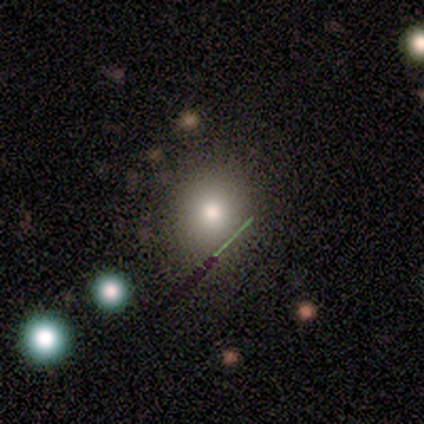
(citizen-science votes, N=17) A smooth galaxy with no disk features (76%) that is round (62%).

Vote fractions:
- Smooth or featured? smooth: 76% / star or artifact: 18% / featured or disk: 6%
- How rounded? round: 62% / in between: 38% / cigar-shaped: 0%
- Merging? none: 86% / minor disturbance: 14% / major disturbance: 0% / merger: 0%